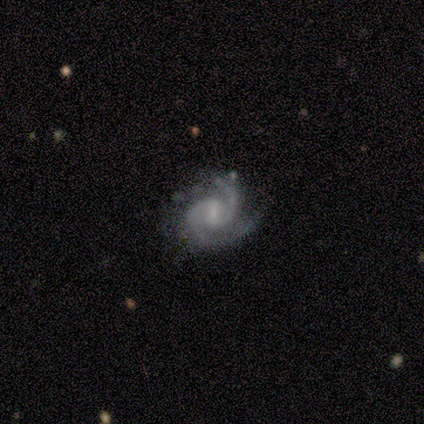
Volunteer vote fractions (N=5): Overall: featured or disk (100%). Edge-on disk: no (100%). Bar: weak (80%). Spiral arms: yes (100%). Spiral arm count: 2 (100%). Spiral winding: medium (60%; tight 40%). Bulge size: small (80%). Merging: minor disturbance (60%; none 40%).